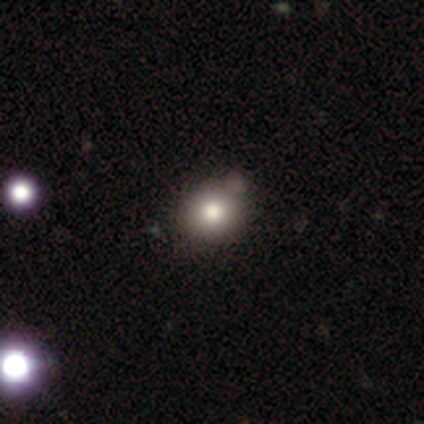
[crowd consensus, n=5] smooth 80%, star or artifact 20%, featured or disk 0%. Down the decision tree: how rounded — round (75%); merging — minor disturbance (50%).